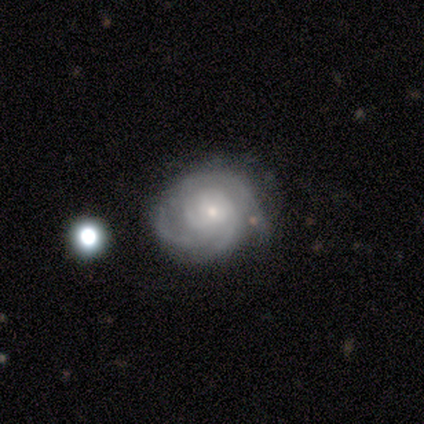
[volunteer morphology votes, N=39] Overall: featured or disk (87%). Edge-on disk: no (100%). Bar: no (82%). Spiral arms: yes (88%). Spiral arm count: 3 (33%, tied with can't tell). Spiral winding: tight (60%; medium 37%). Bulge size: small (82%). Merging: none (67%).